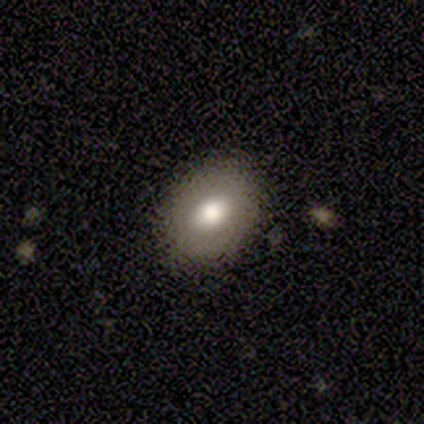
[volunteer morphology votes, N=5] This appears to be a smooth galaxy with no disk features (100%) that is in between round and cigar-shaped (80%). Merging: none (100%).